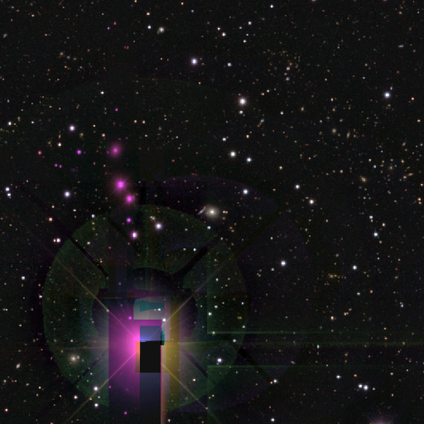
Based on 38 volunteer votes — smooth-or-featured: star or artifact: 87% | smooth: 8% | featured or disk: 5%